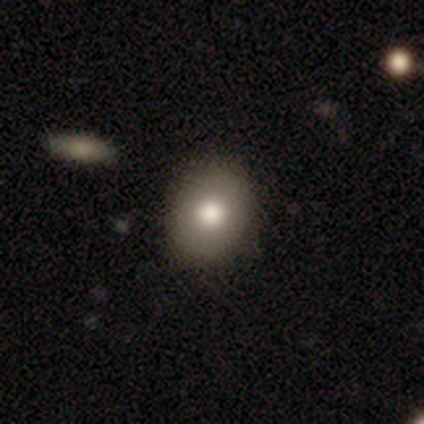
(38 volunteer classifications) Q: Smooth or featured?
A: smooth (74%); runner-up: featured or disk (18%)
Q: How rounded?
A: round (68%); runner-up: in between (32%)
Q: Merging?
A: none (86%); runner-up: minor disturbance (11%)